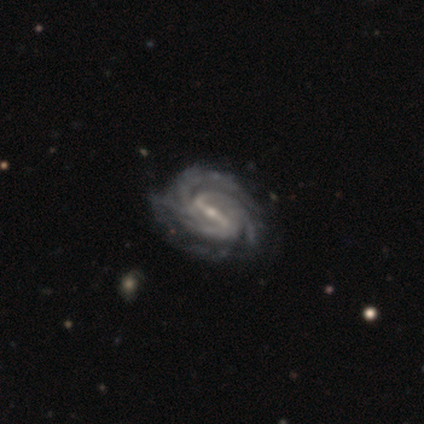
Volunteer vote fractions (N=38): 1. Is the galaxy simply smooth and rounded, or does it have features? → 97% featured or disk, 3% star or artifact, 0% smooth.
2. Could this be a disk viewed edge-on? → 95% no, 5% yes.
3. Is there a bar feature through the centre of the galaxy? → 89% strong, 11% weak, 0% no.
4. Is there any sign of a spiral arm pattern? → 100% yes, 0% no.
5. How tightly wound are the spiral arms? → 57% tight, 40% medium, 3% loose.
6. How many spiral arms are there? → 46% 3, 29% 2, 14% can't tell, 6% 4, 3% 1, 3% more than 4.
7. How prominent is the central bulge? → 66% small, 31% moderate, 3% none, 0% dominant, 0% large.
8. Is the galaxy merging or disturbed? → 51% none, 19% minor disturbance, 5% major disturbance, 0% merger.